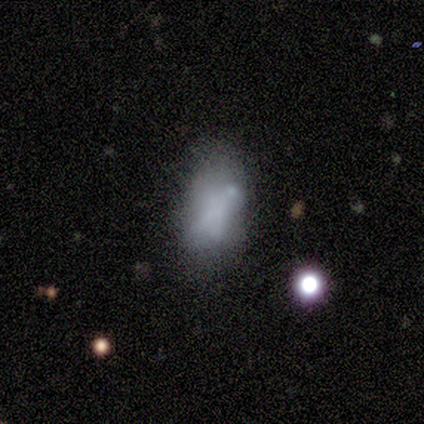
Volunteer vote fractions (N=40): Smooth or featured?
  - featured or disk: 52% *
  - smooth: 40%
  - star or artifact: 8%
Edge-on disk?
  - no: 90% *
  - yes: 10%
Bar?
  - no: 84% *
  - strong: 11%
  - weak: 5%
Spiral arms?
  - no: 100% *
  - yes: 0%
Bulge size?
  - none: 89% *
  - large: 11%
  - dominant: 0%
  - moderate: 0%
  - small: 0%
Merging?
  - minor disturbance: 38% *
  - none: 30%
  - major disturbance: 22%
  - merger: 11%